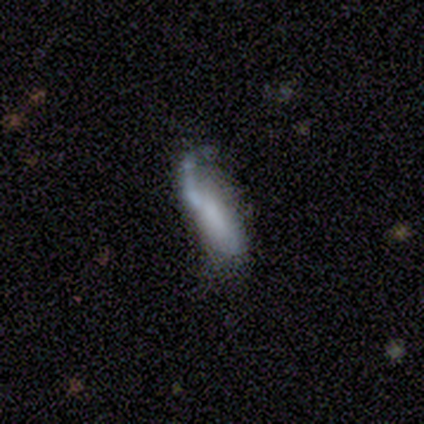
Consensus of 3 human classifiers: This appears to be a smooth galaxy with no disk features (67%) that is in between round and cigar-shaped (100%). Merging: major disturbance (67%).